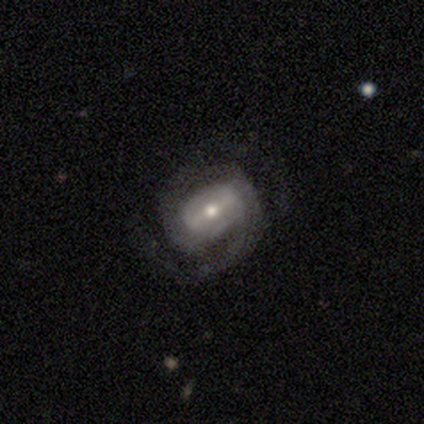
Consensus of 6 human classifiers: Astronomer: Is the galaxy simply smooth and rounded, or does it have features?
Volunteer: featured or disk — 100%.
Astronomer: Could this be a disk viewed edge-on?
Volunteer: no — 100%.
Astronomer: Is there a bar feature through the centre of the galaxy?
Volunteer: strong — 50%, tied with weak at 50%.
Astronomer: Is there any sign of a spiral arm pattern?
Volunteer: yes — 100%.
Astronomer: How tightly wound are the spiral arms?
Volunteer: medium — 67%.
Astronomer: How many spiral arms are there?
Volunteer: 2 — 33%, tied with 3 at 33%.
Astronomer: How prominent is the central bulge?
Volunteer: small — 50% (runner-up: moderate, 33%).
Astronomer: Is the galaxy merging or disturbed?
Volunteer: none — 67%.